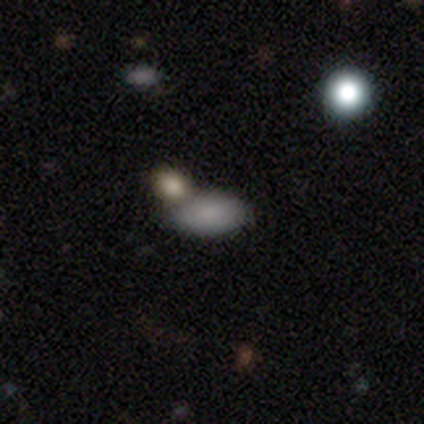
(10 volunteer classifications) Overall: smooth (70%). How rounded: in between (100%). Merging: none (75%).